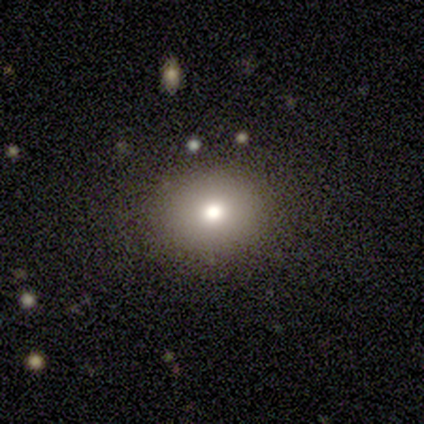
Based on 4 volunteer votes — A smooth galaxy with no disk features (100%) that is round (100%).

Vote fractions:
- Smooth or featured? smooth: 100% / featured or disk: 0% / star or artifact: 0%
- How rounded? round: 100% / in between: 0% / cigar-shaped: 0%
- Merging? none: 75% / minor disturbance: 25% / major disturbance: 0% / merger: 0%